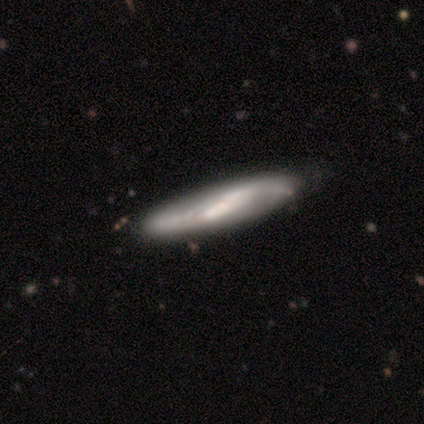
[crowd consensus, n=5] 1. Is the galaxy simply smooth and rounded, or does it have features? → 60% featured or disk, 40% smooth, 0% star or artifact.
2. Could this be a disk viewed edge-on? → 67% yes, 33% no.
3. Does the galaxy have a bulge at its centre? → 100% none, 0% boxy, 0% rounded.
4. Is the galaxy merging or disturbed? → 80% none, 20% minor disturbance, 0% major disturbance, 0% merger.